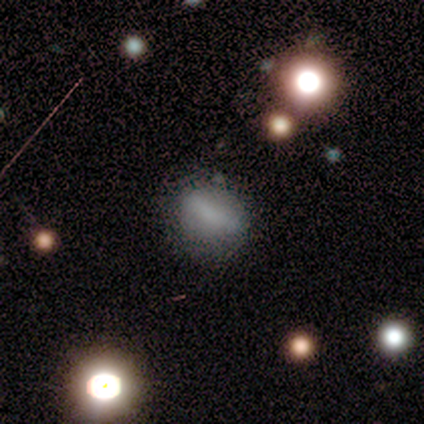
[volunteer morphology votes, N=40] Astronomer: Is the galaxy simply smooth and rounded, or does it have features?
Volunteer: smooth — 55% (runner-up: featured or disk, 35%).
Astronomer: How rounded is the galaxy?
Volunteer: in between — 73%.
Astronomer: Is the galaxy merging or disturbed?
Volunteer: none — 61%.